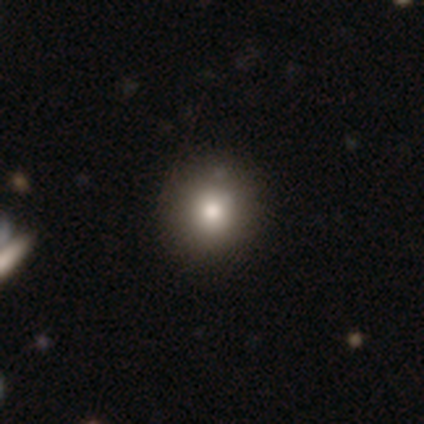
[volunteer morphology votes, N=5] smooth 80%, featured or disk 20%, star or artifact 0%. Down the decision tree: how rounded — round (100%); merging — none (60%).